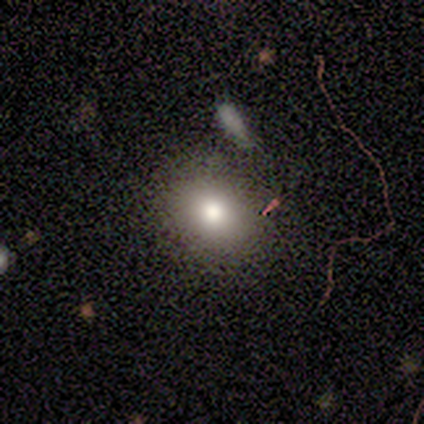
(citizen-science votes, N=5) Smooth or featured? 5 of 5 (100%) said smooth. How rounded? 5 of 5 (100%) said in between. Merging? 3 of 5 (60%) said none.